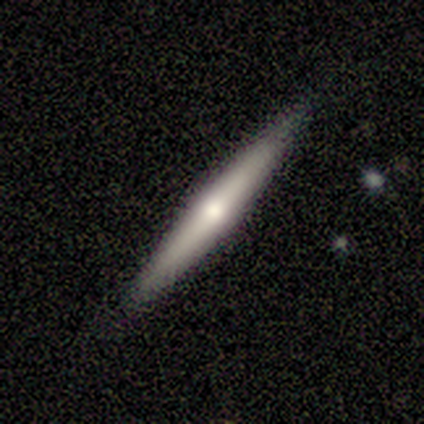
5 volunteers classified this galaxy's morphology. This appears to be a smooth galaxy with no disk features (60%) that is cigar-shaped (100%). Merging: none (100%).